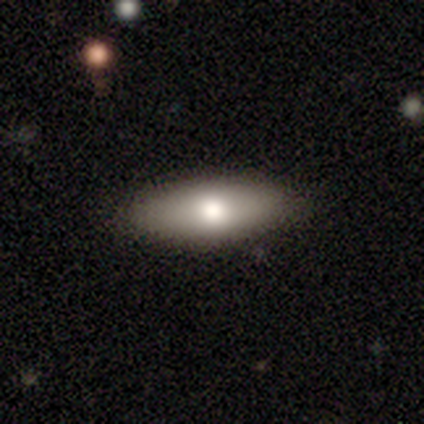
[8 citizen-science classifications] Morphology: type=smooth (75%); roundness=cigar-shaped (67%); merging=none (100%).